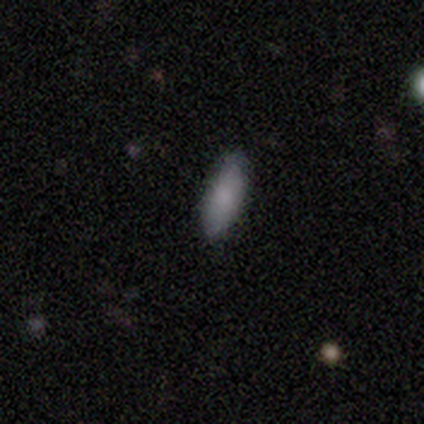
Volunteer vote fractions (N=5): This appears to be a smooth galaxy with no disk features (100%) that is in between round and cigar-shaped (100%). Merging: none (60%).